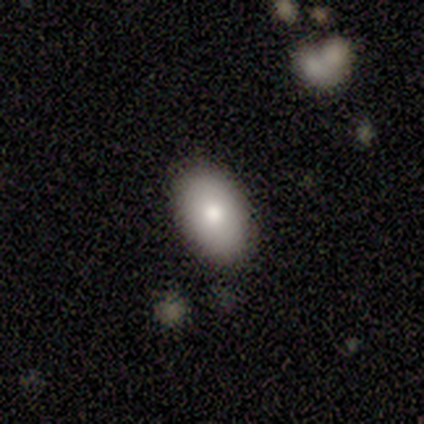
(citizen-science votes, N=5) Smooth or featured?
  - smooth: 100% *
  - featured or disk: 0%
  - star or artifact: 0%
How rounded?
  - in between: 100% *
  - round: 0%
  - cigar-shaped: 0%
Merging?
  - none: 100% *
  - minor disturbance: 0%
  - major disturbance: 0%
  - merger: 0%